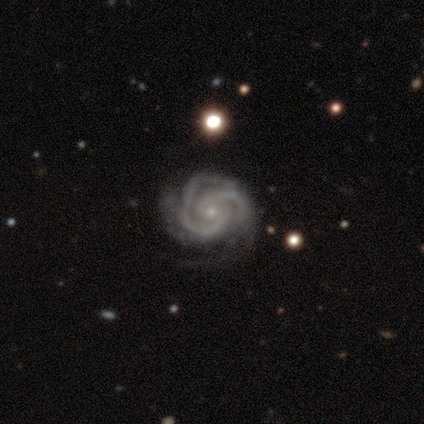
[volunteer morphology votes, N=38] A featured or disk galaxy (100%) with no bar (63%), 2 (65%) tight (70%) spiral arms (97%) and a small central bulge (87%).

Vote fractions:
- Smooth or featured? featured or disk: 100% / smooth: 0% / star or artifact: 0%
- Edge-on disk? no: 100% / yes: 0%
- Bar? no: 63% / weak: 34% / strong: 3%
- Spiral arms? yes: 97% / no: 3%
- Spiral winding? tight: 70% / medium: 27% / loose: 3%
- Spiral arm count? 2: 65% / 3: 32% / 4: 3% / 1: 0% / more than 4: 0% / can't tell: 0%
- Bulge size? small: 87% / moderate: 13% / dominant: 0% / large: 0% / none: 0%
- Merging? none: 53% / minor disturbance: 11% / major disturbance: 5% / merger: 3%